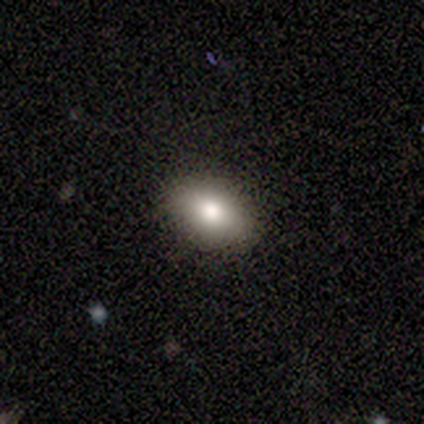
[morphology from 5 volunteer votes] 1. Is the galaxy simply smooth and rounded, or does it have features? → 80% smooth, 20% featured or disk, 0% star or artifact.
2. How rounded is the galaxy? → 75% in between, 25% round, 0% cigar-shaped.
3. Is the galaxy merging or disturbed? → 100% none, 0% minor disturbance, 0% major disturbance, 0% merger.